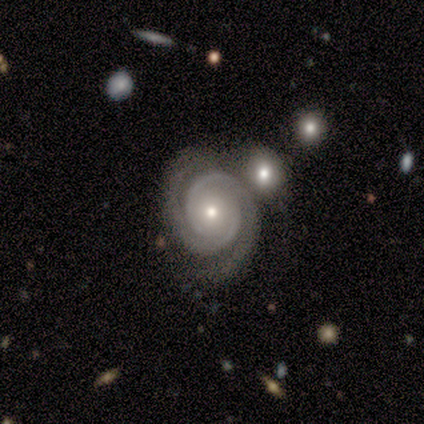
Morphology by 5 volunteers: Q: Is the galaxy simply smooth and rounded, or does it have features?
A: featured or disk — 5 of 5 (100%).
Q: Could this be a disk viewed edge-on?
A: no — 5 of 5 (100%).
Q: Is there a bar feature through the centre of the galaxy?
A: no — 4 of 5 (80%).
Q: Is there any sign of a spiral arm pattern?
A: yes — 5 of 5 (100%).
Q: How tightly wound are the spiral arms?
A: tight — 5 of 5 (100%).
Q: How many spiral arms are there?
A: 2 — 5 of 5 (100%).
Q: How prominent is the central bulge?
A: small — 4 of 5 (80%).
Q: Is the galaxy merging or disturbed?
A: none — 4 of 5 (80%).